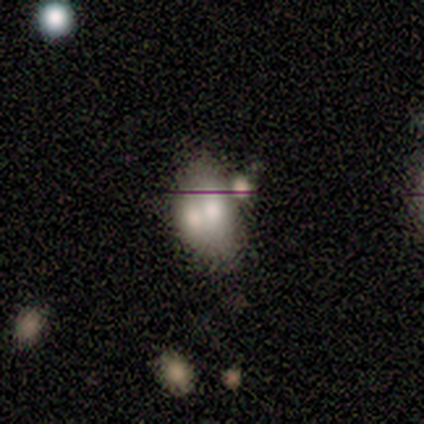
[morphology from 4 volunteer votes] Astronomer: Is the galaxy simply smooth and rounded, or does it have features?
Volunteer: smooth — 75%.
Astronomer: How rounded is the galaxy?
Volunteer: in between — 100%.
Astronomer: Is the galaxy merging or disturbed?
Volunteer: merger — 50%.